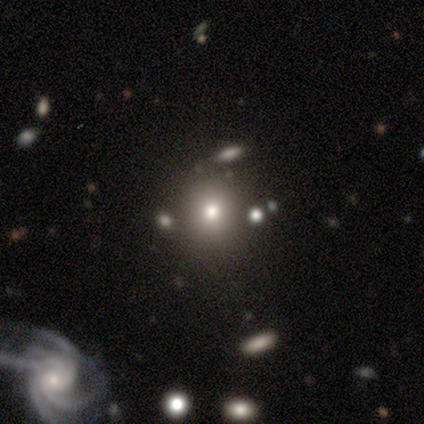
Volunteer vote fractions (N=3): A smooth galaxy with no disk features (67%) that is round (100%). Merging: none (67%).